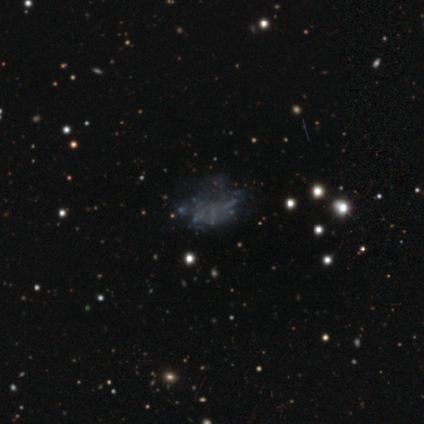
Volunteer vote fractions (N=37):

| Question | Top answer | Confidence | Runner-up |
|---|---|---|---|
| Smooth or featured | featured or disk | 51% | star or artifact (30%) |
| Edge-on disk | no | 100% | — |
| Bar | no | 95% | weak (5%) |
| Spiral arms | no | 100% | — |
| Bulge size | none | 100% | — |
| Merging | none | 54% | major disturbance (31%) |